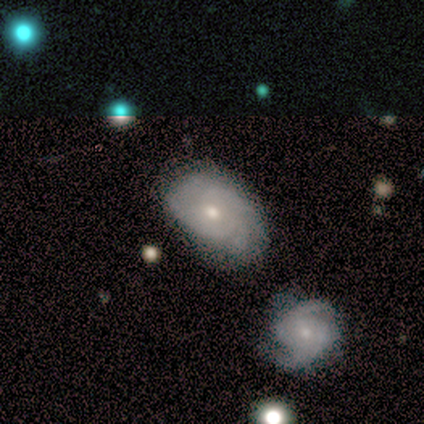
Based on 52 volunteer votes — This appears to be a featured or disk galaxy (67%) with no bar (82%), tight (61%) spiral arms (85%) and a moderate central bulge (58%). Merging: none (48%).